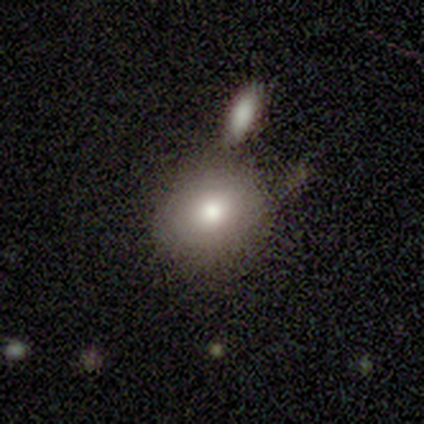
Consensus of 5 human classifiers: Smooth or featured?
  - smooth: 100% *
  - featured or disk: 0%
  - star or artifact: 0%
How rounded?
  - round: 80% *
  - in between: 20%
  - cigar-shaped: 0%
Merging?
  - none: 80% *
  - merger: 20%
  - minor disturbance: 0%
  - major disturbance: 0%